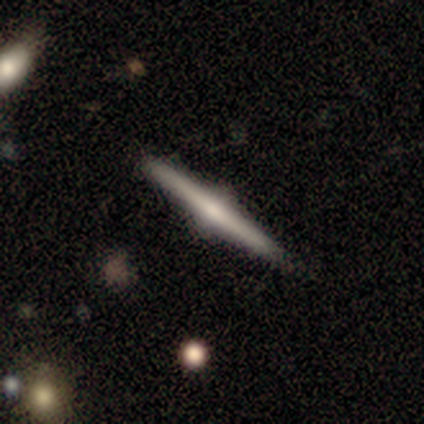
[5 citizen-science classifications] A featured or disk galaxy (60%) viewed edge-on (100%) with a rounded central bulge (100%). Merging: none (100%).